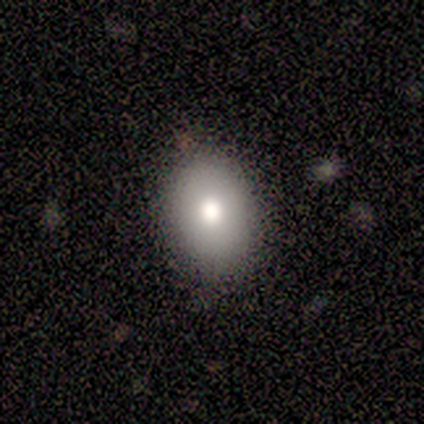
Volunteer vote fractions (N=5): Morphology: type=smooth (100%); roundness=in between (60%); merging=none (80%).